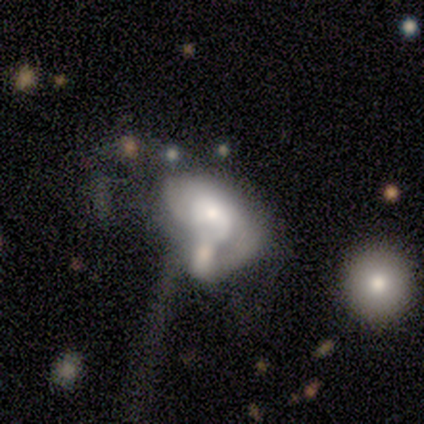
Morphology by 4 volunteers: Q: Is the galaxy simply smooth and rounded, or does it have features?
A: featured or disk — 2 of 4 (50%).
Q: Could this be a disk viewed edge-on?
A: no — 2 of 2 (100%).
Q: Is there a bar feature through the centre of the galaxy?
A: no — 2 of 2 (100%).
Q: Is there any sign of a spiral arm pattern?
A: yes — 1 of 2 (50%, tied with no).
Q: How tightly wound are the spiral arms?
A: tight — 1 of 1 (100%).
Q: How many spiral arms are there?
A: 1 — 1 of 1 (100%).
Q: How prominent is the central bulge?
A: large — 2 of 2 (100%).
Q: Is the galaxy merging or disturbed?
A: major disturbance — 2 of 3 (67%).